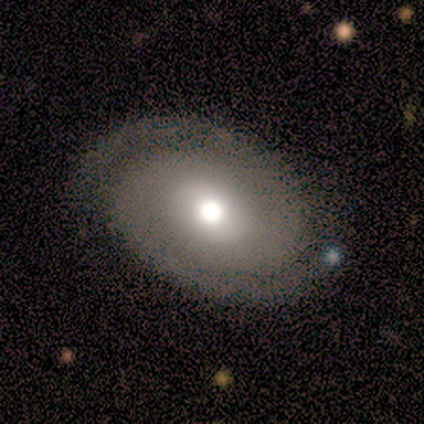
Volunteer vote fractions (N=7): This appears to be a featured or disk galaxy (86%) with no bar (67%), 2 (100%) tight (60%) spiral arms (83%) and a moderate central bulge (50%). Merging: none (100%).